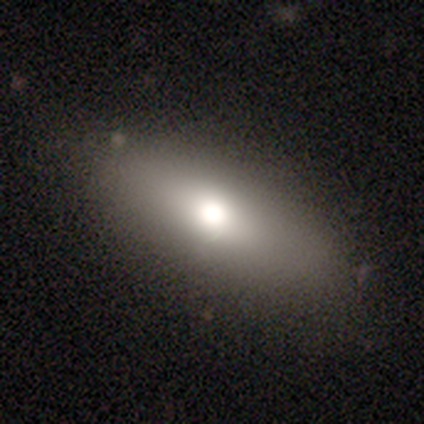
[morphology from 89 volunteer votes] Overall: smooth (66%; featured or disk 27%). How rounded: in between (54%; cigar-shaped 34%). Merging: none (81%).